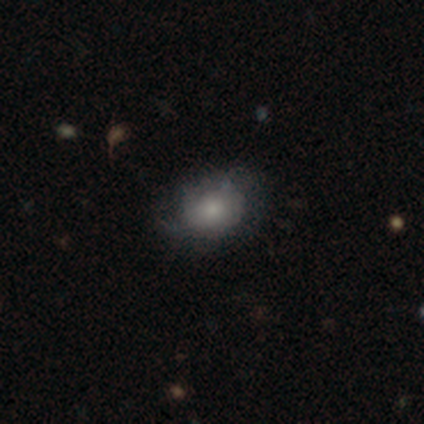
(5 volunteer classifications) Smooth or featured? 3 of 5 (60%) said smooth. How rounded? 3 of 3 (100%) said in between. Merging? 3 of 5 (60%) said none.